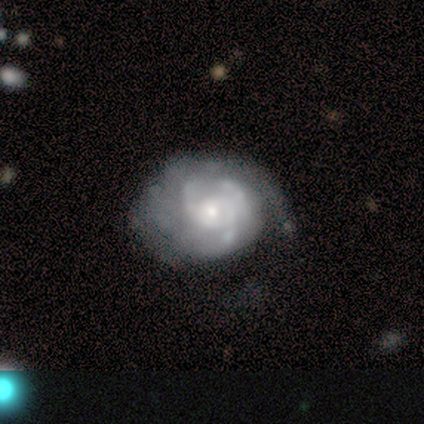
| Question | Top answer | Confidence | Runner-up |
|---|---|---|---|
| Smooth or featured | featured or disk | 75% | smooth (25%) |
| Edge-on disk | no | 100% | — |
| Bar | no | 100% | — |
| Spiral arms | yes | 100% | — |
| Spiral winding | tight | 100% | — |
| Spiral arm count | can't tell | 67% | more than 4 (33%) |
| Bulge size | small | 100% | — |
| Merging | minor disturbance | 50% | none (25%) |